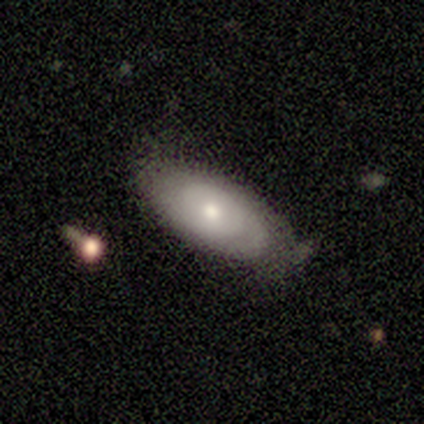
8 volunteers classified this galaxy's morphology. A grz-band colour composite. It shows a featured or disk galaxy (50%) with no bar (100%), no spiral arms (67%) and a small central bulge (67%). Merging: none (71%).